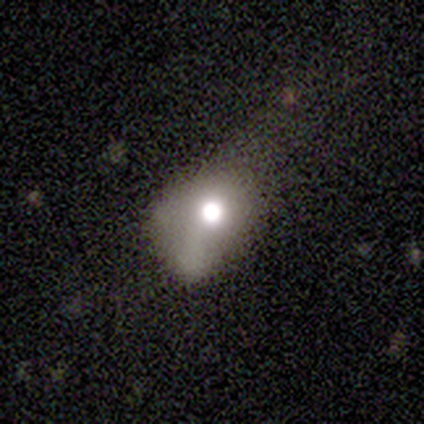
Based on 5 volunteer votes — Smooth or featured: featured or disk — 60% (smooth — 40%)
Edge-on disk: no — 100%
Bar: no — 67% (weak — 33%)
Spiral arms: no — 100%
Bulge size: moderate — 67% (large — 33%)
Merging: major disturbance — 60% (none — 20%)